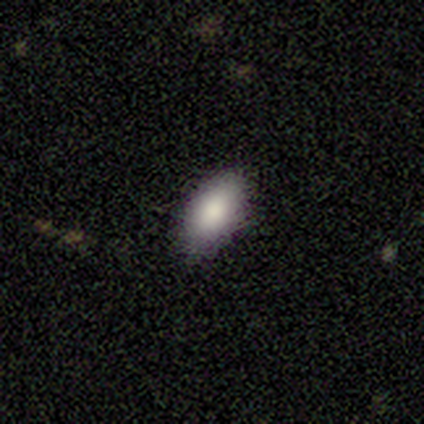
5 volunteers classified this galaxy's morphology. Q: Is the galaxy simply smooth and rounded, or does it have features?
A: smooth — 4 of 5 (80%).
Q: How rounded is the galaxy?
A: in between — 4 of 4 (100%).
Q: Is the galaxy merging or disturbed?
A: none — 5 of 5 (100%).